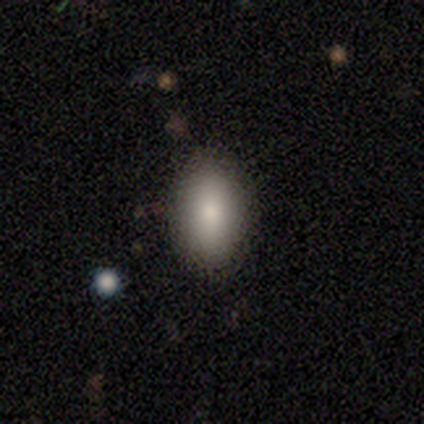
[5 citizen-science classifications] Smooth or featured?
  - smooth: 60% *
  - featured or disk: 20%
  - star or artifact: 20%
How rounded?
  - in between: 100% *
  - round: 0%
  - cigar-shaped: 0%
Merging?
  - none: 100% *
  - minor disturbance: 0%
  - major disturbance: 0%
  - merger: 0%